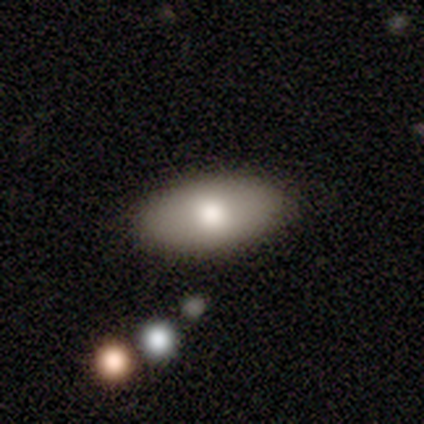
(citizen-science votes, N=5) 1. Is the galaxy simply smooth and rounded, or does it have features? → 60% smooth, 40% featured or disk, 0% star or artifact.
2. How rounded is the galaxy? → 100% in between, 0% round, 0% cigar-shaped.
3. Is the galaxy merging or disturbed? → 100% none, 0% minor disturbance, 0% major disturbance, 0% merger.